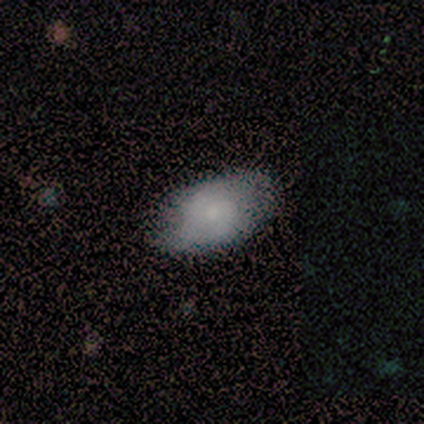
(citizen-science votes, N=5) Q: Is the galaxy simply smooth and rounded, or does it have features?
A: smooth — 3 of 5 (60%).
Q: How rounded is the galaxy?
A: in between — 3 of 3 (100%).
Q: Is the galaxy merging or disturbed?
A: none — 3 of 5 (60%).